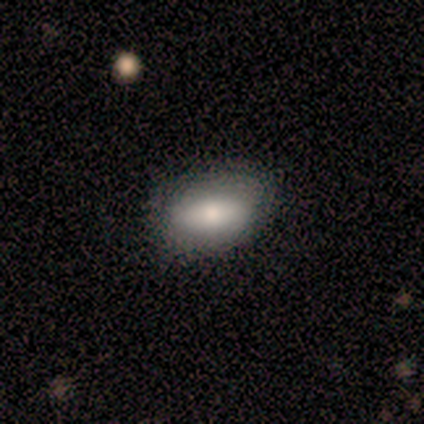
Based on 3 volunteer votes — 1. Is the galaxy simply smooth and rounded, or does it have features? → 100% smooth, 0% featured or disk, 0% star or artifact.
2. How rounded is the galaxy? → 100% in between, 0% round, 0% cigar-shaped.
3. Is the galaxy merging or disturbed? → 67% none, 33% minor disturbance, 0% major disturbance, 0% merger.